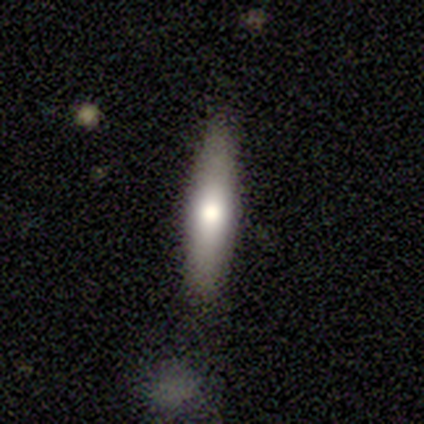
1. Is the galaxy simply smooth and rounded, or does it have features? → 54% smooth, 46% featured or disk, 0% star or artifact.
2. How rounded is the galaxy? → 86% cigar-shaped, 14% in between, 0% round.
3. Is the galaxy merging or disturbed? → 85% none, 8% minor disturbance, 8% major disturbance, 0% merger.